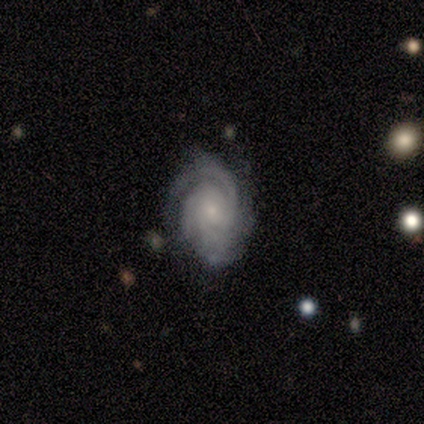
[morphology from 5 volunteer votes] smooth-or-featured: featured or disk: 100% | smooth: 0% | star or artifact: 0%
  disk-edge-on: no: 100% | yes: 0%
    bar: no: 100% | strong: 0% | weak: 0%
    has-spiral-arms: yes: 100% | no: 0%
      spiral-winding: medium: 80% | tight: 20% | loose: 0%
      spiral-arm-count: 2: 40% | 3: 20% | 4: 20% | can't tell: 20% | 1: 0% | more than 4: 0%
    bulge-size: small: 60% | moderate: 40% | dominant: 0% | large: 0% | none: 0%
  merging: none: 100% | minor disturbance: 0% | major disturbance: 0% | merger: 0%